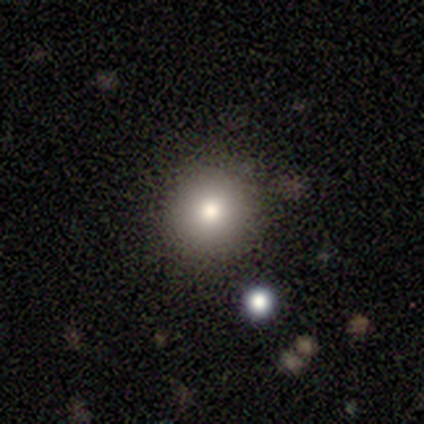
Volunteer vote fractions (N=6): A smooth galaxy with no disk features (83%) that is round (80%).

Vote fractions:
- Smooth or featured? smooth: 83% / star or artifact: 17% / featured or disk: 0%
- How rounded? round: 80% / in between: 20% / cigar-shaped: 0%
- Merging? none: 100% / minor disturbance: 0% / major disturbance: 0% / merger: 0%